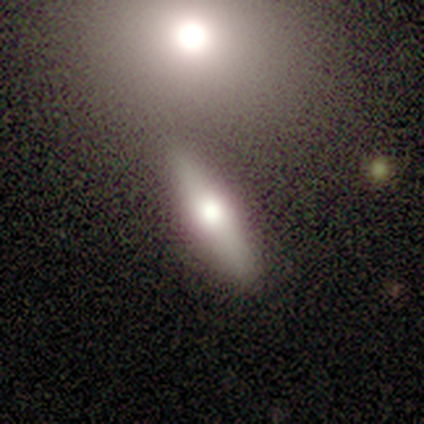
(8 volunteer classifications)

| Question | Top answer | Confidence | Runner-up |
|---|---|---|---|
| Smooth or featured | featured or disk | 50% | smooth (38%) |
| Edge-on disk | yes | 75% | no (25%) |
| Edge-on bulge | rounded | 100% | — |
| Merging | none | 86% | minor disturbance (14%) |